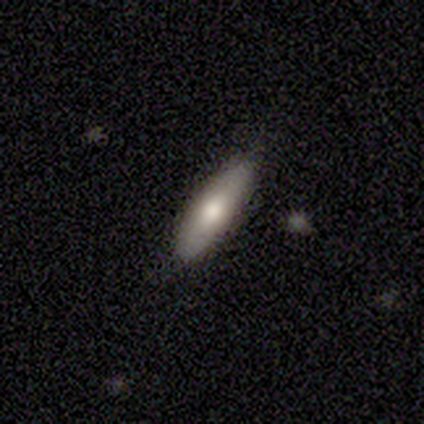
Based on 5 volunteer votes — A smooth galaxy with no disk features (60%) that is cigar-shaped (67%). Merging: none (80%).